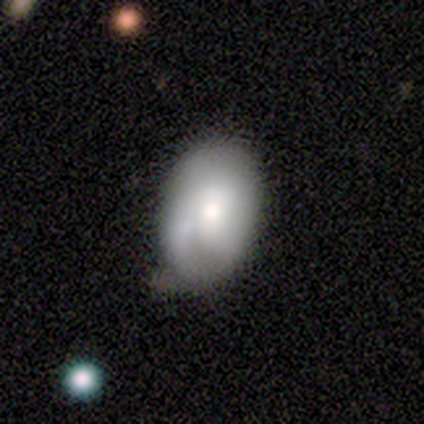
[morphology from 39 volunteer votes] Volunteers were most divided on "merging": none: 49%, minor disturbance: 46%, major disturbance: 3%, merger: 3%. More confident: how rounded — in between (78%); smooth or featured — smooth (69%).